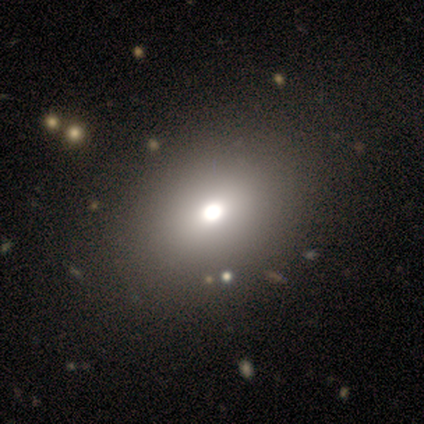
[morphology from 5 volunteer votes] smooth-or-featured: smooth: 80% | star or artifact: 20% | featured or disk: 0%
  how-rounded: in between: 75% | round: 25% | cigar-shaped: 0%
  merging: none: 100% | minor disturbance: 0% | major disturbance: 0% | merger: 0%